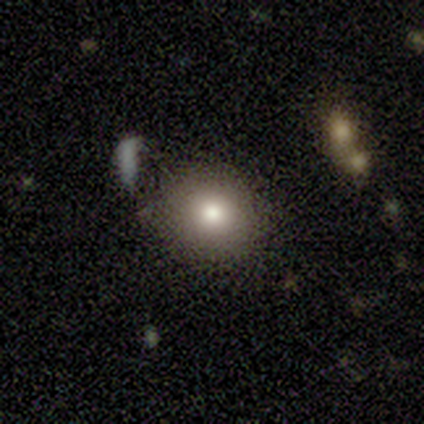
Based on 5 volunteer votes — smooth_or_featured: smooth (p=1.00)
how_rounded: round (p=1.00)
merging: none (p=0.60) [alt: minor disturbance p=0.20]